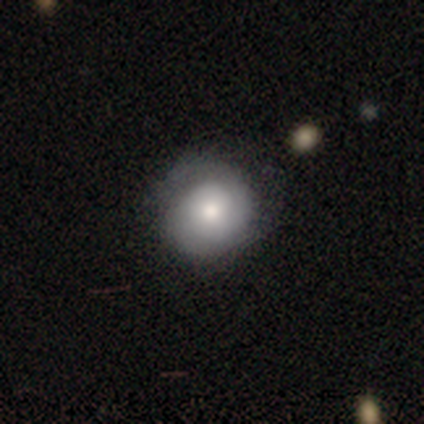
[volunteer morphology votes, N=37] smooth_or_featured: smooth (p=0.68) [alt: featured or disk p=0.32]
how_rounded: round (p=0.88) [alt: in between p=0.12]
merging: none (p=0.49) [alt: minor disturbance p=0.14]